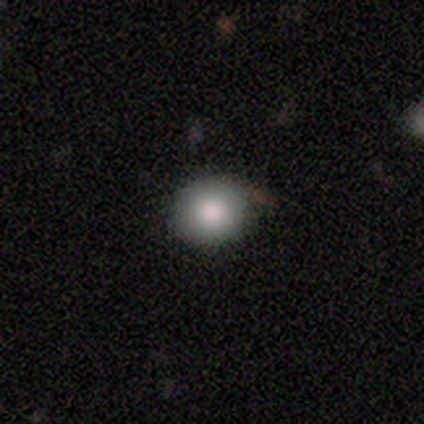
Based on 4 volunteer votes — smooth-or-featured: smooth: 100% | featured or disk: 0% | star or artifact: 0%
  how-rounded: round: 100% | in between: 0% | cigar-shaped: 0%
  merging: none: 75% | minor disturbance: 25% | major disturbance: 0% | merger: 0%